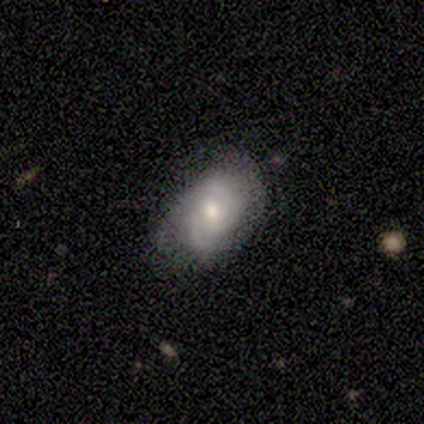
Smooth or featured? featured or disk (86%)
Edge-on disk? no (100%)
Bar? no (50%)
Spiral arms? yes (83%)
Spiral winding? medium (40%, tied with loose)
Spiral arm count? can't tell (60%)
Bulge size? small (67%)
Merging? none (86%)